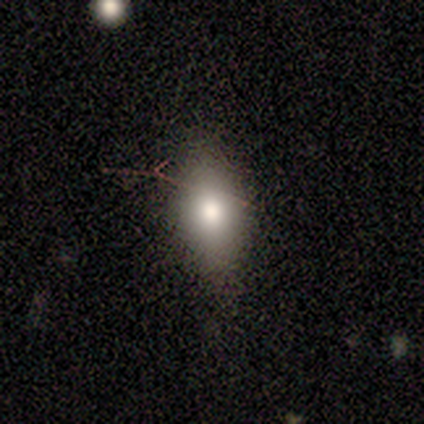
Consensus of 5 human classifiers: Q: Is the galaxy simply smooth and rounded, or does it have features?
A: smooth — 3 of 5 (60%).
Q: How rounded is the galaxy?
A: in between — 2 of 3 (67%).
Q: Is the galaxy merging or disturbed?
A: none — 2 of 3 (67%).